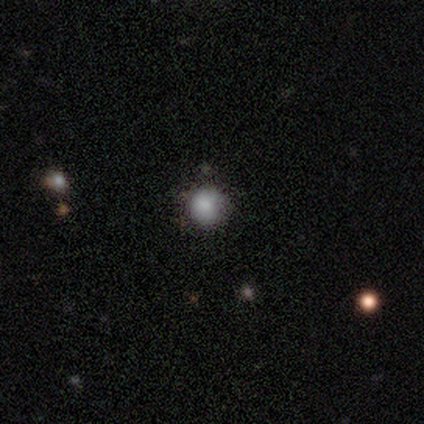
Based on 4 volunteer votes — Smooth or featured?
  - smooth: 100% *
  - featured or disk: 0%
  - star or artifact: 0%
How rounded?
  - round: 75% *
  - in between: 25%
  - cigar-shaped: 0%
Merging?
  - none: 75% *
  - merger: 25%
  - minor disturbance: 0%
  - major disturbance: 0%